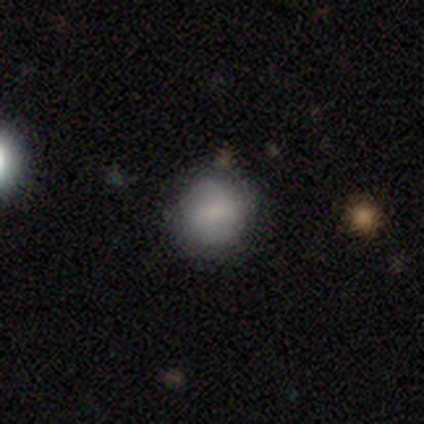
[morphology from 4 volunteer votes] This is likely a smooth galaxy (75%). How rounded: clearly round (100%). Merging: likely none (67%).